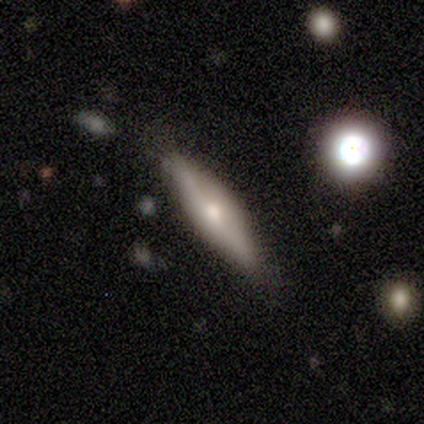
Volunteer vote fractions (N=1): Smooth or featured? 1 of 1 (100%) said smooth. How rounded? 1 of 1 (100%) said cigar-shaped. Merging? 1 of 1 (100%) said major disturbance.